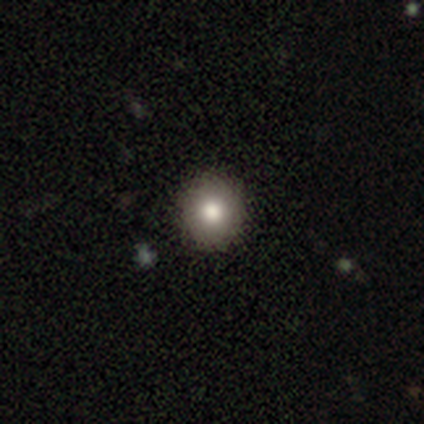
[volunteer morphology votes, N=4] A smooth galaxy with no disk features (50%) that is round (100%).

Vote fractions:
- Smooth or featured? smooth: 50% / featured or disk: 25% / star or artifact: 25%
- How rounded? round: 100% / in between: 0% / cigar-shaped: 0%
- Merging? none: 100% / minor disturbance: 0% / major disturbance: 0% / merger: 0%